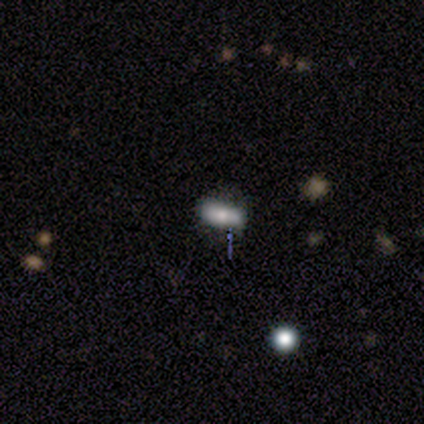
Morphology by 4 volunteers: Smooth or featured? smooth (50%)
How rounded? round (50%, tied with in between)
Merging? none (100%)